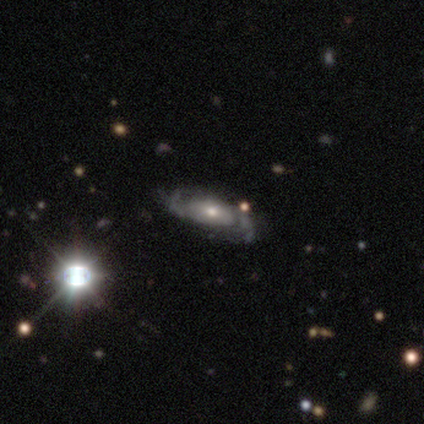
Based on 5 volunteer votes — Morphology: type=featured or disk (100%); edge-on=no (100%); bar=no (80%); spiral arms=yes (100%); winding=loose (60%); arm count=2 (100%); bulge=large (40%, tied with moderate); merging=none (60%).